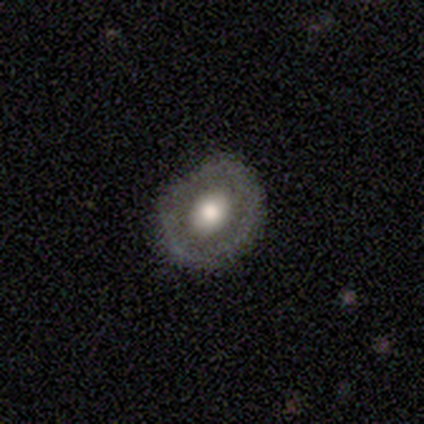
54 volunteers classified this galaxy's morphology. smooth_or_featured: featured or disk (p=0.69) [alt: smooth p=0.28]
disk_edge_on: no (p=1.00)
bar: no (p=0.84) [alt: weak p=0.16]
has_spiral_arms: no (p=0.97) [alt: yes p=0.03]
bulge_size: moderate (p=0.51) [alt: large p=0.46]
merging: none (p=0.83) [alt: minor disturbance p=0.15]